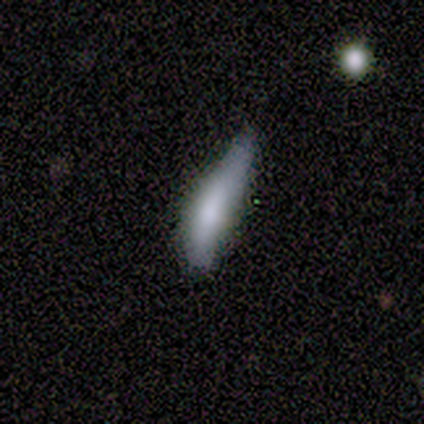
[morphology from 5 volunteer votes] type=smooth (60%); roundness=cigar-shaped (67%); merging=major disturbance (50%).